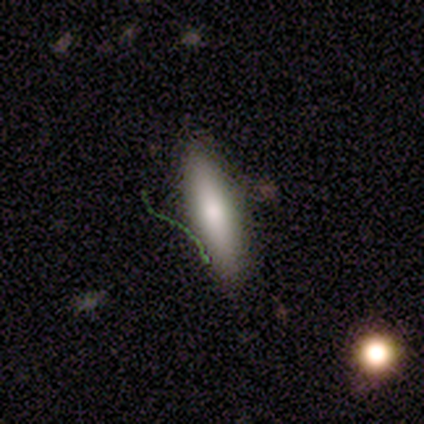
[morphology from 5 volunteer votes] Smooth or featured? smooth (60%)
How rounded? cigar-shaped (67%)
Merging? none (75%)